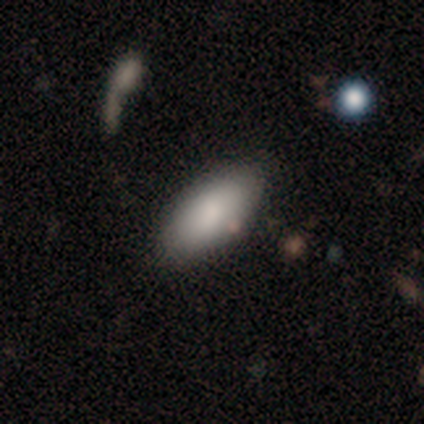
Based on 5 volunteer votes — Smooth or featured: smooth — 80% (featured or disk — 20%)
How rounded: in between — 75% (cigar-shaped — 25%)
Merging: none — 100%